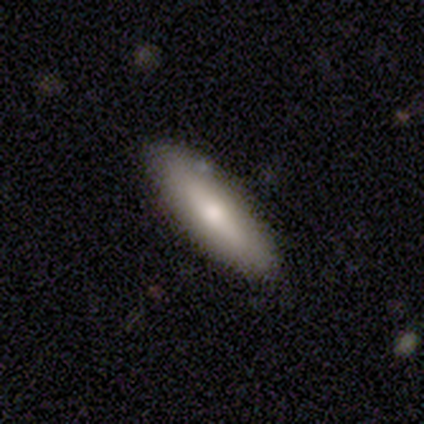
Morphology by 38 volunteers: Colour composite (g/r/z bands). It shows a smooth galaxy with no disk features (76%) that is in between round and cigar-shaped (59%). Merging: none (89%).